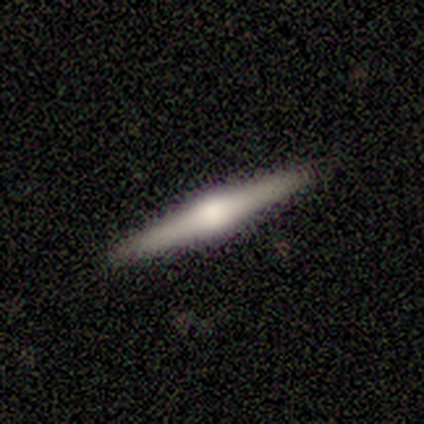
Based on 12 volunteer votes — This is likely a featured or disk galaxy (75%). It is clearly viewed edge-on (100%). Edge-on bulge: clearly rounded (89%). Merging: clearly none (100%).